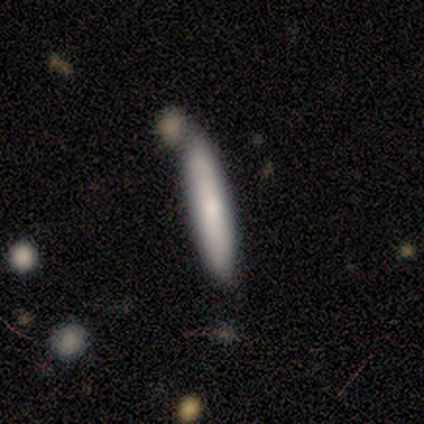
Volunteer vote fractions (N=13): Q: Smooth or featured?
A: smooth (62%); runner-up: featured or disk (38%)
Q: How rounded?
A: cigar-shaped (88%); runner-up: in between (12%)
Q: Merging?
A: none (77%); runner-up: minor disturbance (15%)